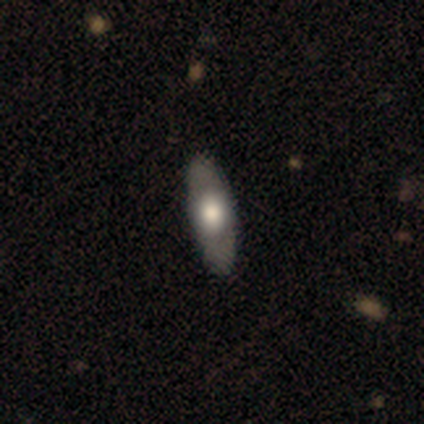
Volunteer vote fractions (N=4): Volunteers were most divided on "smooth or featured": smooth: 75%, featured or disk: 25%, star or artifact: 0%. More confident: how rounded — in between (100%); merging — none (100%).